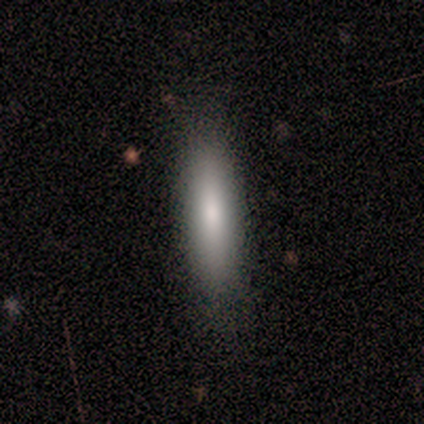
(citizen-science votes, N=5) Overall: smooth (80%). How rounded: cigar-shaped (75%). Merging: none (80%).